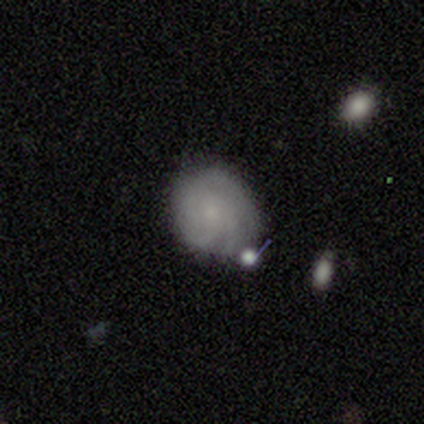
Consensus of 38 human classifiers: Volunteers were most divided on "spiral arm count": 3: 45%, can't tell: 36%, 2: 14%, more than 4: 5%, 1: 0%, 4: 0%. More confident: edge-on disk — no (100%); bar — no (88%); spiral arms — yes (88%); spiral winding — tight (68%); smooth or featured — featured or disk (66%); merging — none (57%); bulge size — small (56%).